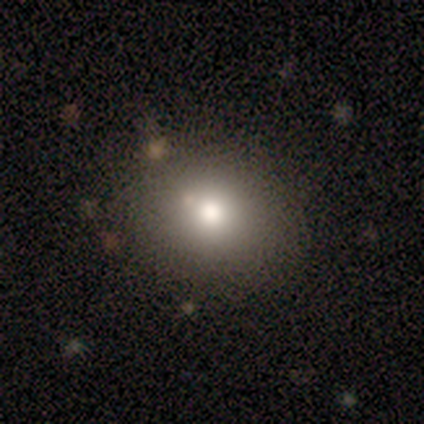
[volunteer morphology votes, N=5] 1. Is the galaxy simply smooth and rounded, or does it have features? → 60% smooth, 20% featured or disk, 20% star or artifact.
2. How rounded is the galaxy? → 67% in between, 33% round, 0% cigar-shaped.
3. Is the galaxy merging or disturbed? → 75% none, 25% minor disturbance, 0% major disturbance, 0% merger.